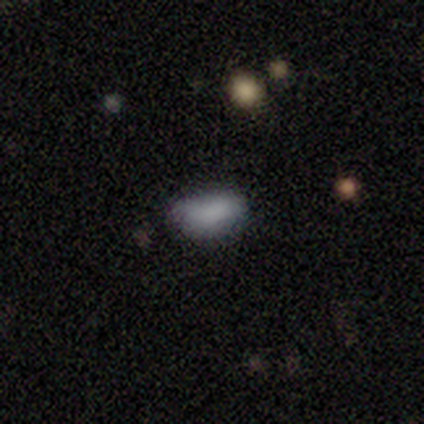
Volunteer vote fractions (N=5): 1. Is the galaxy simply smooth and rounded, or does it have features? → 100% smooth, 0% featured or disk, 0% star or artifact.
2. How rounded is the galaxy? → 100% in between, 0% round, 0% cigar-shaped.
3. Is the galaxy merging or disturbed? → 80% none, 20% merger, 0% minor disturbance, 0% major disturbance.